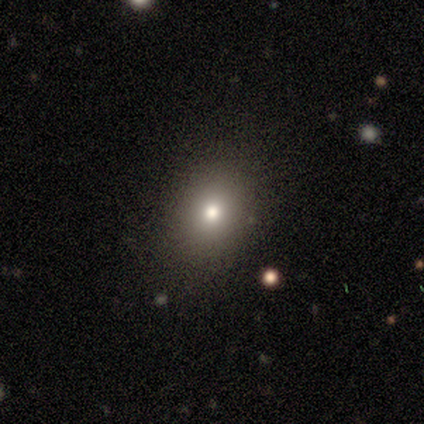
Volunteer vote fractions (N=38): smooth-or-featured: smooth: 68% | featured or disk: 18% | star or artifact: 13%
  how-rounded: in between: 54% | round: 46% | cigar-shaped: 0%
  merging: none: 85% | minor disturbance: 6% | major disturbance: 6% | merger: 3%